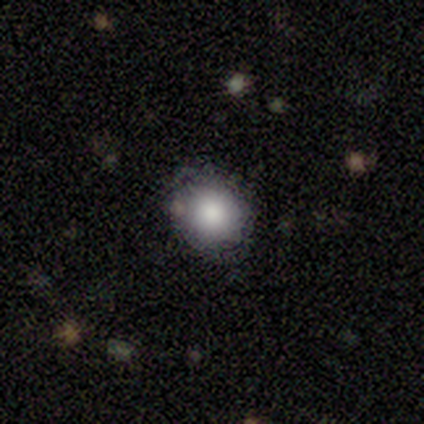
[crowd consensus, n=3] smooth_or_featured: smooth (p=0.33) [tied with: featured or disk p=0.33, star or artifact p=0.33]
how_rounded: round (p=1.00)
merging: none (p=0.50) [tied with: minor disturbance p=0.50]